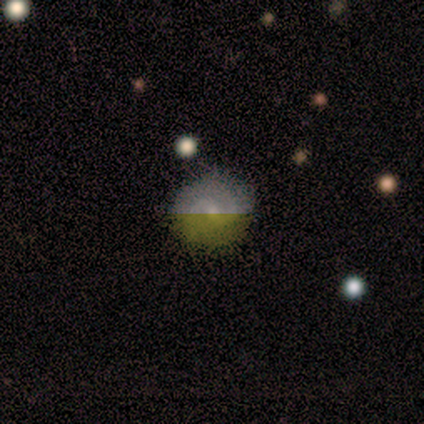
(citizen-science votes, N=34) featured or disk 47%, smooth 38%, star or artifact 15%. Down the decision tree: edge-on disk — no (100%); bar — no (50%); spiral arms — yes (88%); spiral arm count — 2 (86%); spiral winding — medium (57%); bulge size — small (69%); merging — none (76%).